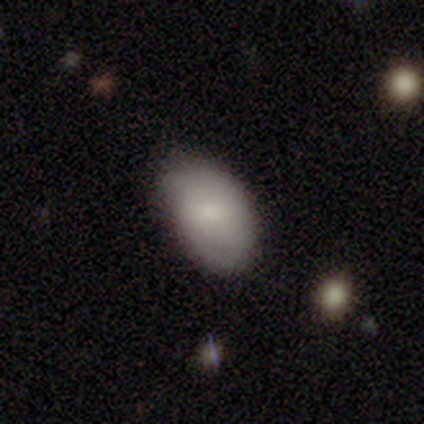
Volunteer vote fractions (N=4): smooth 75%, star or artifact 25%, featured or disk 0%. Down the decision tree: how rounded — in between (100%); merging — none (67%).